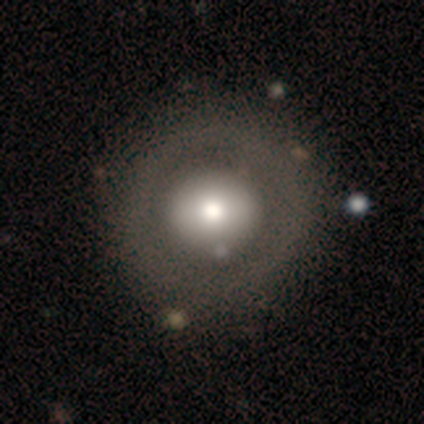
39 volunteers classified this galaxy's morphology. Q: Smooth or featured?
A: smooth (59%); runner-up: featured or disk (36%)
Q: How rounded?
A: round (91%); runner-up: in between (9%)
Q: Merging?
A: none (57%); runner-up: major disturbance (14%)